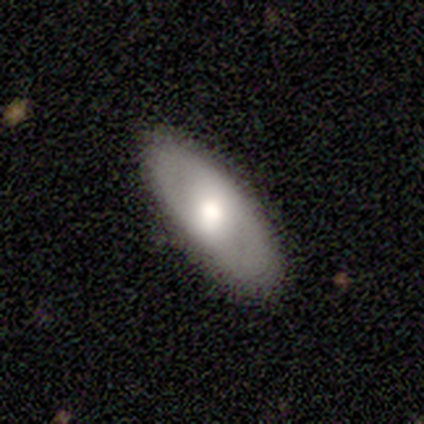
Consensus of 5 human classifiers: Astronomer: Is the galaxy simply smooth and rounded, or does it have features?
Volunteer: featured or disk — 60% (runner-up: smooth, 40%).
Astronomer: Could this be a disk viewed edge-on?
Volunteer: no — 100%.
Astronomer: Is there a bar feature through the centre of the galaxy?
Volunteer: no — 67%.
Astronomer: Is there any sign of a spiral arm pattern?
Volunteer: yes — 67%.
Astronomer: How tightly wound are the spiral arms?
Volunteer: tight — 50%, tied with loose at 50%.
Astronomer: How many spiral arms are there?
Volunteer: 2 — 50%, tied with can't tell at 50%.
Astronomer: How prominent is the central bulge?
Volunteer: moderate — 100%.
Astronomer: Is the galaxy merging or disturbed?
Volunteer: none — 60%.